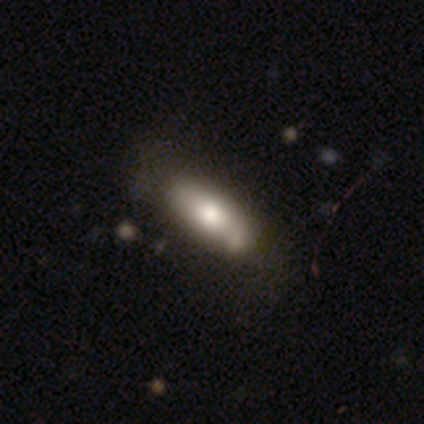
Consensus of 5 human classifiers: smooth-or-featured: smooth: 100% | featured or disk: 0% | star or artifact: 0%
  how-rounded: in between: 60% | cigar-shaped: 40% | round: 0%
  merging: none: 60% | minor disturbance: 20% | merger: 20% | major disturbance: 0%